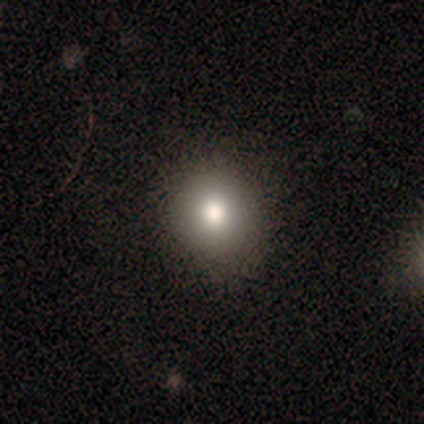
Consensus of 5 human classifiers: This appears to be a featured or disk galaxy (60%) with no bar (100%), no spiral arms (67%) and a dominant central bulge (33%, tied with large and moderate). Merging: none (80%).